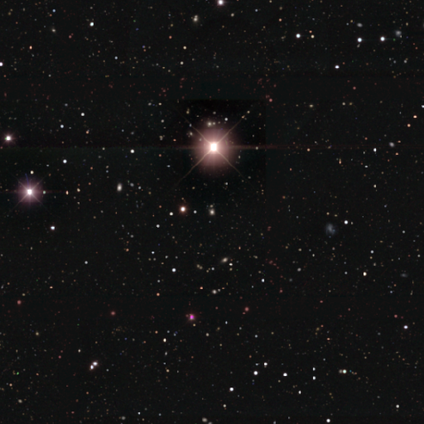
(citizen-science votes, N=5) Q: Smooth or featured?
A: star or artifact (100%)